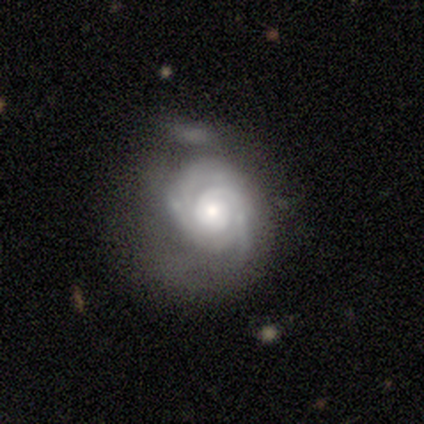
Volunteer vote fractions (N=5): This appears to be a featured or disk galaxy (100%) with no bar (60%), tight (60%) spiral arms (100%) and a moderate central bulge (60%). Merging: none (60%).